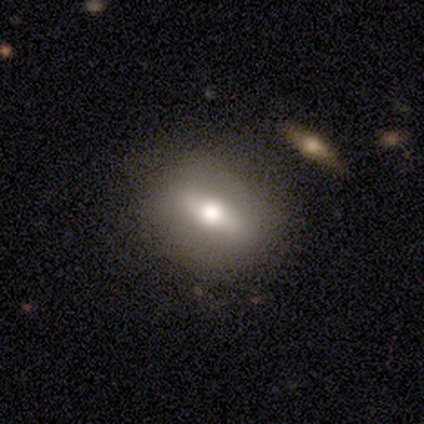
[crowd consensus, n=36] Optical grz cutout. It shows a smooth galaxy with no disk features (53%) that is in between round and cigar-shaped (63%). Merging: none (68%).